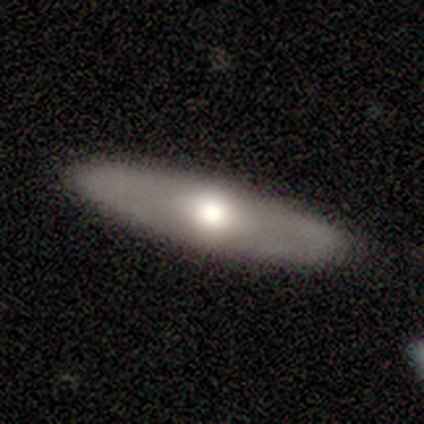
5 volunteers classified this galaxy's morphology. Volunteers were most divided on "edge-on disk" (2-way tie): yes: 50%, no: 50%. More confident: edge-on bulge — rounded (100%); merging — none (100%); smooth or featured — featured or disk (80%).